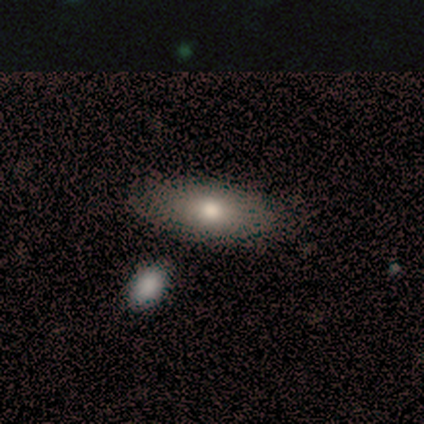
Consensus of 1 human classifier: A smooth galaxy with no disk features (100%) that is cigar-shaped (100%).

Vote fractions:
- Smooth or featured? smooth: 100% / featured or disk: 0% / star or artifact: 0%
- How rounded? cigar-shaped: 100% / round: 0% / in between: 0%
- Merging? none: 100% / minor disturbance: 0% / major disturbance: 0% / merger: 0%